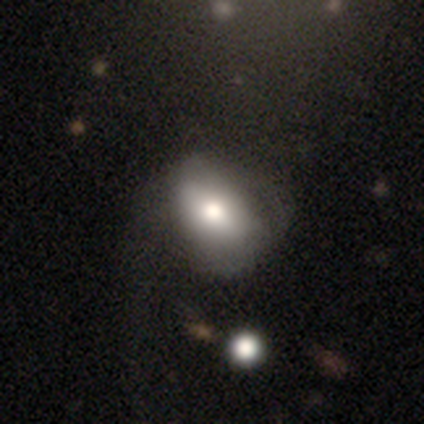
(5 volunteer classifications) A smooth galaxy with no disk features (60%) that is in between round and cigar-shaped (100%). Merging: minor disturbance (40%, tied with major disturbance).